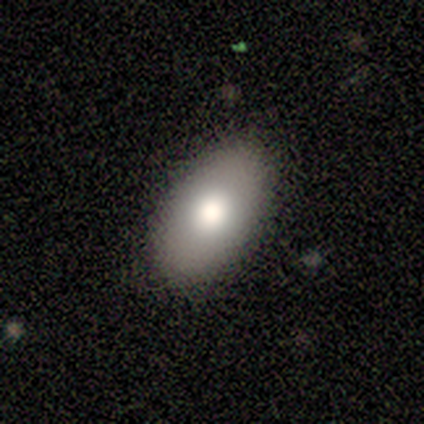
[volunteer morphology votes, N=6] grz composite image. It shows a smooth galaxy with no disk features (50%) that is in between round and cigar-shaped (100%). Merging: none (75%).